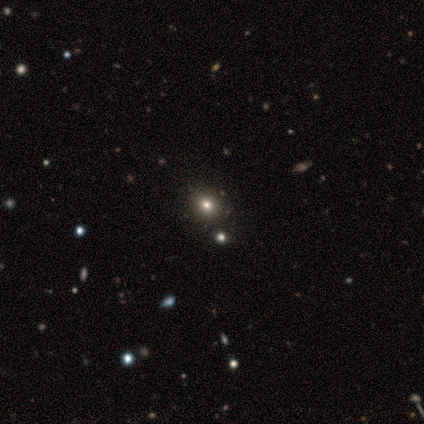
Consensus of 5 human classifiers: Smooth or featured: smooth — 60% (star or artifact — 40%)
How rounded: round — 100%
Merging: none — 100%